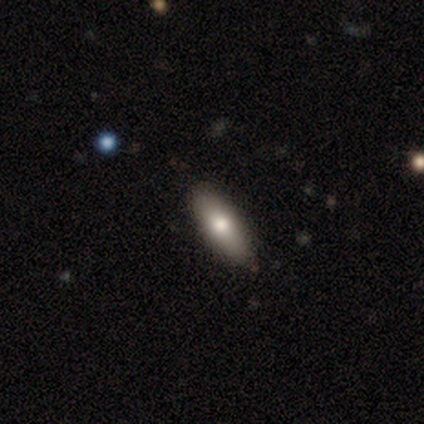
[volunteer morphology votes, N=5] Smooth or featured? 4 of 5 (80%) said smooth. How rounded? 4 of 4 (100%) said in between. Merging? 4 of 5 (80%) said none.